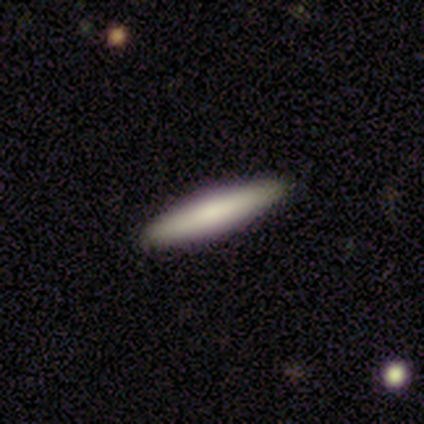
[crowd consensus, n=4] smooth 100%, featured or disk 0%, star or artifact 0%. Down the decision tree: how rounded — cigar-shaped (100%); merging — none (100%).